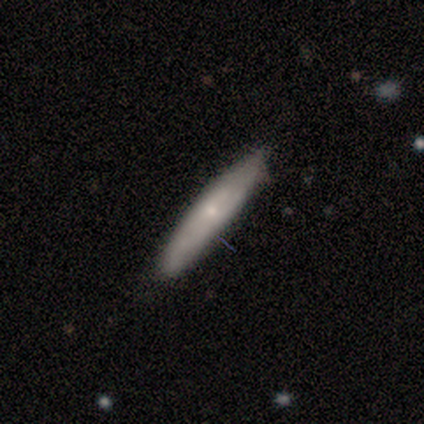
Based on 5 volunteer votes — This is clearly a smooth galaxy (80%). How rounded: clearly cigar-shaped (100%). Merging: likely none (60%).